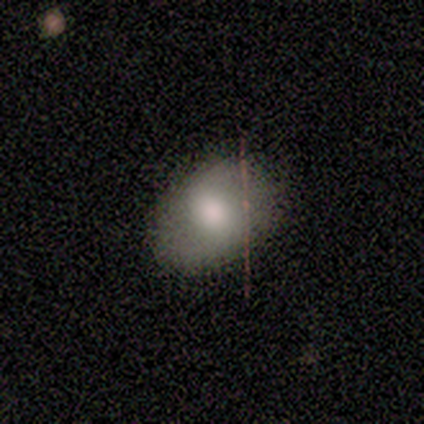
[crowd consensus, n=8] Smooth or featured? 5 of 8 (62%) said smooth. How rounded? 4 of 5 (80%) said in between. Merging? 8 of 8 (100%) said none.